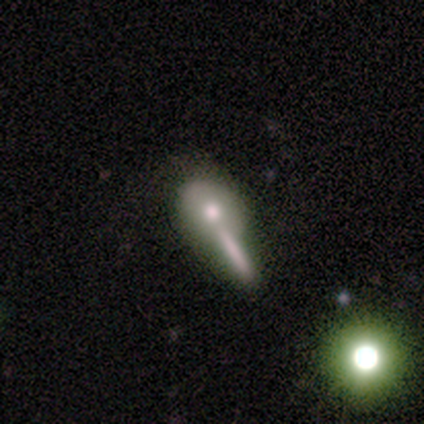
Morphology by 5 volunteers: A smooth galaxy with no disk features (80%) that is round (50%). Merging: merger (50%).